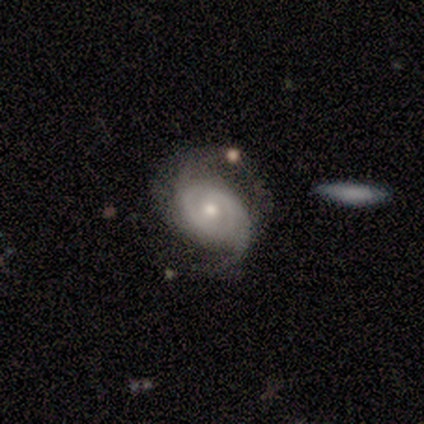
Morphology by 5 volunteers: A featured or disk galaxy (80%) with no bar (100%), 2 (100%) tight (50%, tied with medium) spiral arms (100%) and a moderate central bulge (50%, tied with small).

Vote fractions:
- Smooth or featured? featured or disk: 80% / smooth: 20% / star or artifact: 0%
- Edge-on disk? no: 100% / yes: 0%
- Bar? no: 100% / strong: 0% / weak: 0%
- Spiral arms? yes: 100% / no: 0%
- Spiral winding? tight: 50% (tied) / medium: 50% (tied) / loose: 0%
- Spiral arm count? 2: 100% / 1: 0% / 3: 0% / 4: 0% / more than 4: 0% / can't tell: 0%
- Bulge size? moderate: 50% (tied) / small: 50% (tied) / dominant: 0% / large: 0% / none: 0%
- Merging? none: 60% / minor disturbance: 40% / major disturbance: 0% / merger: 0%